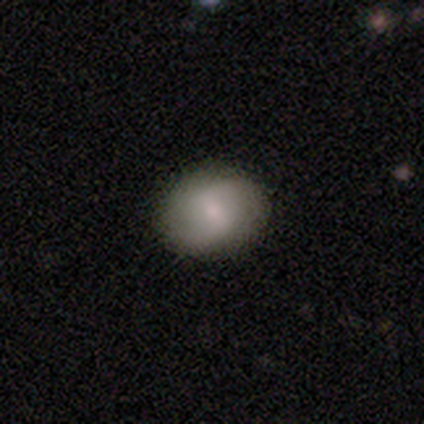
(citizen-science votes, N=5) smooth-or-featured: smooth: 60% | featured or disk: 40% | star or artifact: 0%
  how-rounded: in between: 67% | round: 33% | cigar-shaped: 0%
  merging: none: 80% | minor disturbance: 20% | major disturbance: 0% | merger: 0%